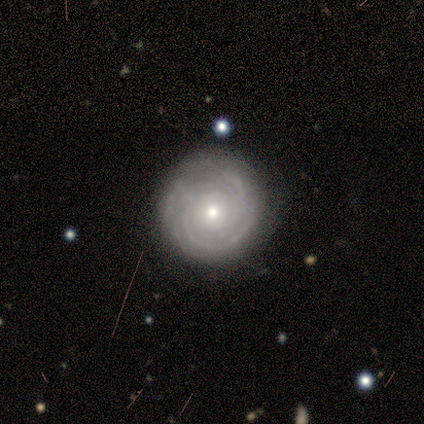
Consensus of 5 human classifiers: Morphology: type=featured or disk (100%); edge-on=no (100%); bar=no (100%); spiral arms=yes (80%); winding=tight (100%); arm count=can't tell (50%); bulge=small (60%); merging=none (100%).